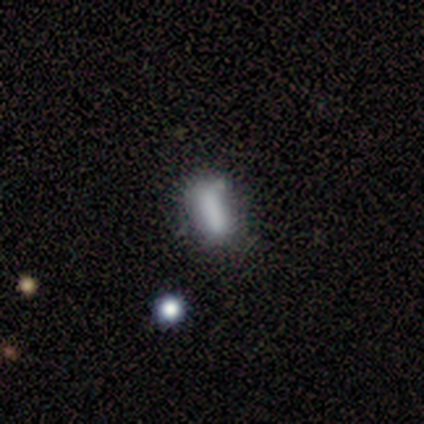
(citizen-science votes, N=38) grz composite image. It shows a smooth galaxy with no disk features (71%) that is in between round and cigar-shaped (59%). Merging: none (63%).